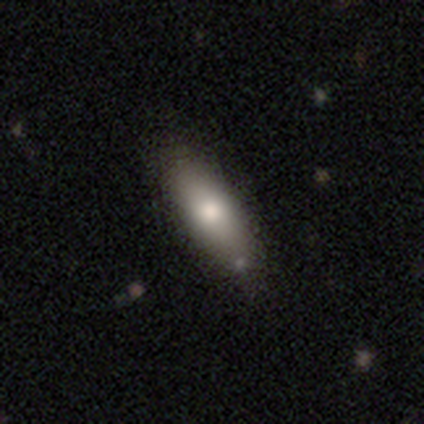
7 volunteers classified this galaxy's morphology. Volunteers were most divided on "merging": none: 57%, minor disturbance: 43%, major disturbance: 0%, merger: 0%. More confident: smooth or featured — smooth (100%); how rounded — in between (71%).